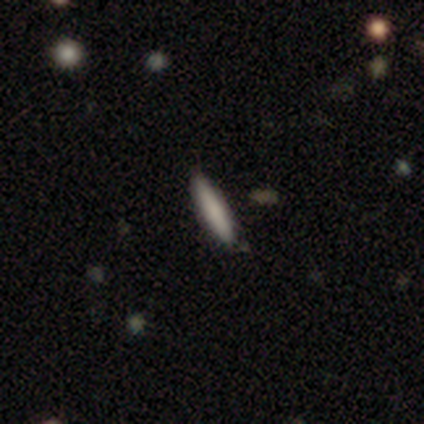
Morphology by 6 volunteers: This appears to be a smooth galaxy with no disk features (100%) that is cigar-shaped (83%). Merging: none (100%).